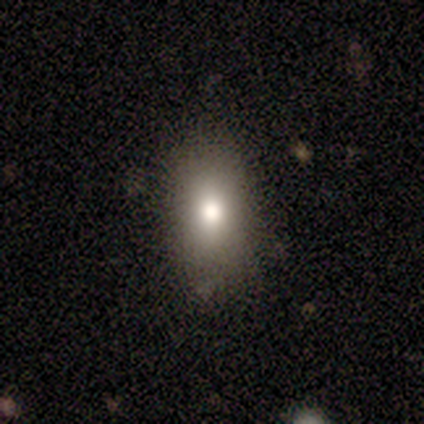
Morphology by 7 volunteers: Overall: smooth (57%; featured or disk 29%). How rounded: round (50%, tied with in between). Merging: none (83%).